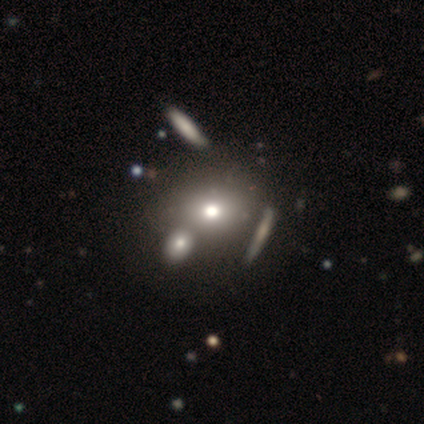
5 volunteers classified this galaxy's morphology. This is likely a smooth galaxy (60%). How rounded: clearly round (100%). Merging: possibly none (50%).